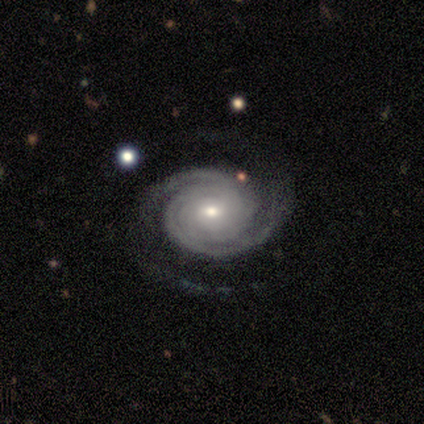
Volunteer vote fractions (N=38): A featured or disk galaxy (97%) with no bar (73%), 2 (65%) tight (81%) spiral arms (100%) and a small central bulge (57%).

Vote fractions:
- Smooth or featured? featured or disk: 97% / star or artifact: 3% / smooth: 0%
- Edge-on disk? no: 100% / yes: 0%
- Bar? no: 73% / weak: 24% / strong: 3%
- Spiral arms? yes: 100% / no: 0%
- Spiral winding? tight: 81% / medium: 14% / loose: 5%
- Spiral arm count? 2: 65% / can't tell: 16% / 3: 14% / 1: 3% / 4: 3% / more than 4: 0%
- Bulge size? small: 57% / moderate: 43% / dominant: 0% / large: 0% / none: 0%
- Merging? none: 84% / minor disturbance: 8% / major disturbance: 8% / merger: 0%